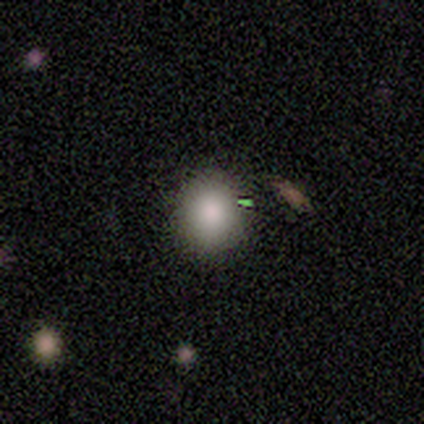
Volunteers were most divided on "how rounded": round: 75%, in between: 25%, cigar-shaped: 0%. More confident: smooth or featured — smooth (100%); merging — none (100%).